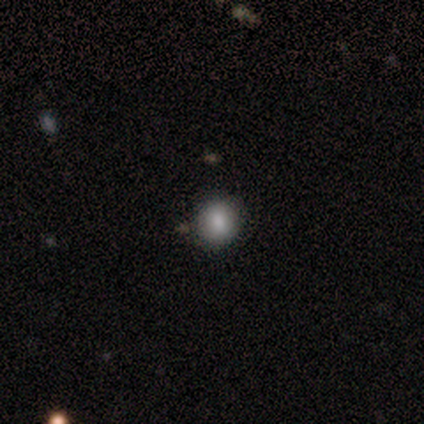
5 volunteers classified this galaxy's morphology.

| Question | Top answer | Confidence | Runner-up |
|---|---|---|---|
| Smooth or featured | smooth | 100% | — |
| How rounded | round | 100% | — |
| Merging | none | 100% | — |